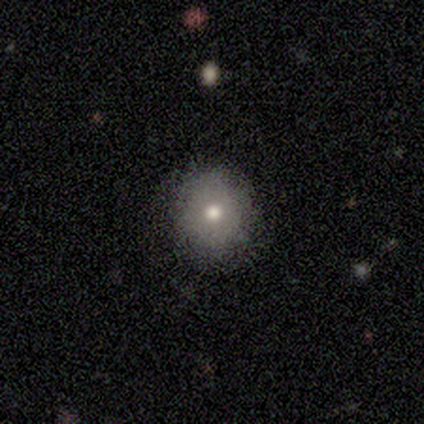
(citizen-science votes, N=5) Smooth or featured?
  - smooth: 80% *
  - star or artifact: 20%
  - featured or disk: 0%
How rounded?
  - round: 50% * (tied)
  - in between: 50% * (tied)
  - cigar-shaped: 0%
Merging?
  - none: 100% *
  - minor disturbance: 0%
  - major disturbance: 0%
  - merger: 0%